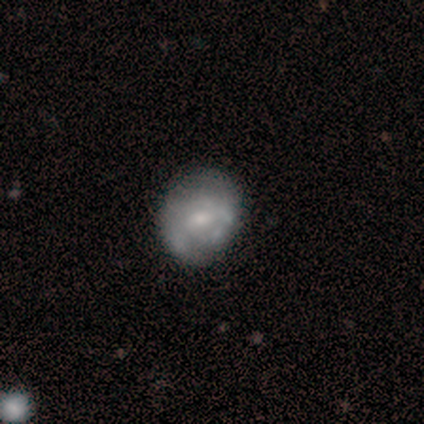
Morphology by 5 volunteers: A featured or disk galaxy (60%) with a weak bar (67%), no spiral arms (67%) and a small central bulge (67%).

Vote fractions:
- Smooth or featured? featured or disk: 60% / smooth: 40% / star or artifact: 0%
- Edge-on disk? no: 100% / yes: 0%
- Bar? weak: 67% / no: 33% / strong: 0%
- Spiral arms? no: 67% / yes: 33%
- Bulge size? small: 67% / moderate: 33% / dominant: 0% / large: 0% / none: 0%
- Merging? minor disturbance: 60% / none: 40% / major disturbance: 0% / merger: 0%